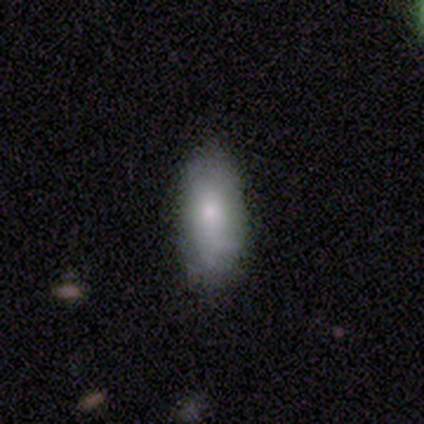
smooth_or_featured: smooth (p=0.64) [alt: featured or disk p=0.26]
how_rounded: in between (p=0.88) [alt: cigar-shaped p=0.08]
merging: none (p=0.66) [alt: minor disturbance p=0.29]